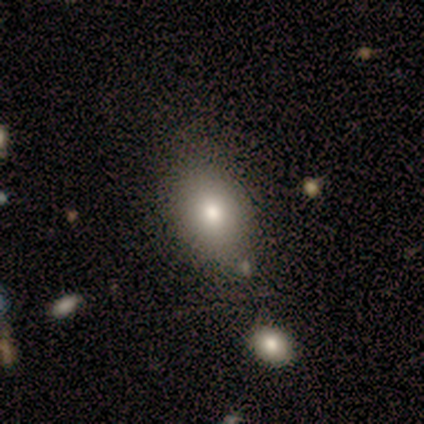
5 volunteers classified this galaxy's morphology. smooth_or_featured: smooth (p=0.80) [alt: star or artifact p=0.20]
how_rounded: in between (p=1.00)
merging: none (p=1.00)